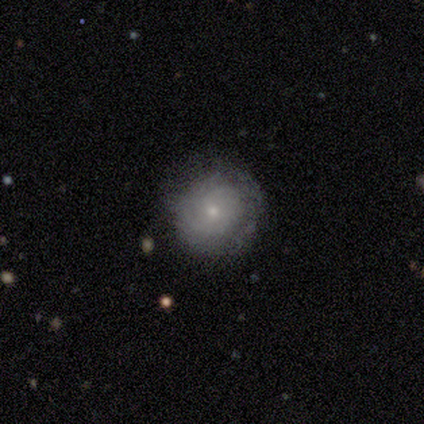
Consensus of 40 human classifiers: Volunteers were most divided on "smooth or featured": featured or disk: 52%, smooth: 40%, star or artifact: 8%. More confident: bar — no (94%); spiral winding — tight (87%); edge-on disk — no (86%); spiral arms — yes (83%); bulge size — small (78%); merging — none (73%); spiral arm count — can't tell (60%).